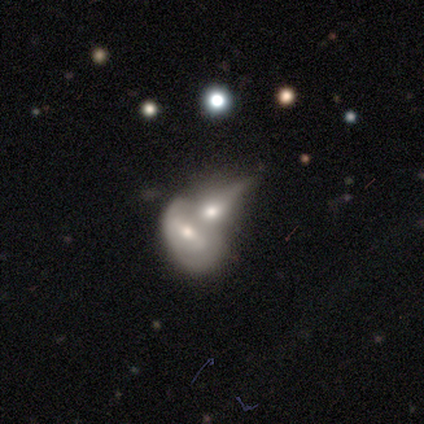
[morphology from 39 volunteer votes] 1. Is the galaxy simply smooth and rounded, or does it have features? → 72% featured or disk, 26% smooth, 3% star or artifact.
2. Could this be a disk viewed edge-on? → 89% no, 11% yes.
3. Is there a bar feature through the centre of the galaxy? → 36% weak (tied), 36% no (tied), 28% strong.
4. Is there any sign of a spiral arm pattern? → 72% no, 28% yes.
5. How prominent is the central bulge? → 56% moderate, 20% small, 16% large, 4% dominant, 4% none.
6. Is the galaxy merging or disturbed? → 61% merger, 5% none, 5% major disturbance, 0% minor disturbance.